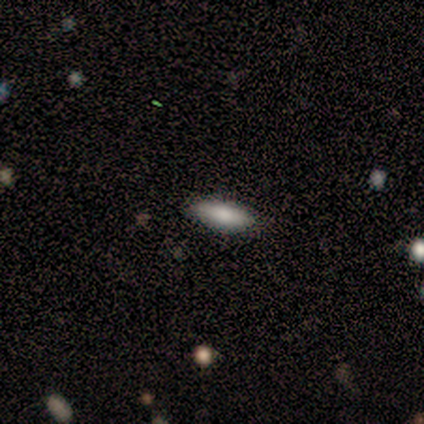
smooth_or_featured: smooth (p=0.75) [alt: featured or disk p=0.25]
how_rounded: in between (p=1.00)
merging: none (p=1.00)